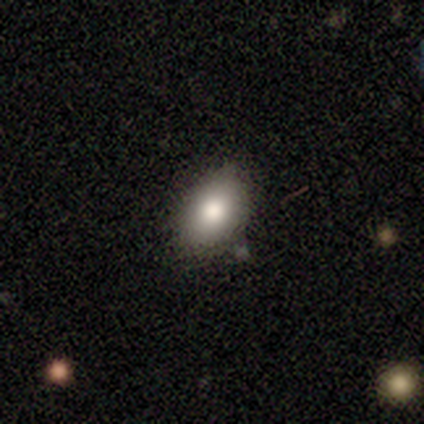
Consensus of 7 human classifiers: A smooth galaxy with no disk features (86%) that is in between round and cigar-shaped (100%). Merging: none (83%).